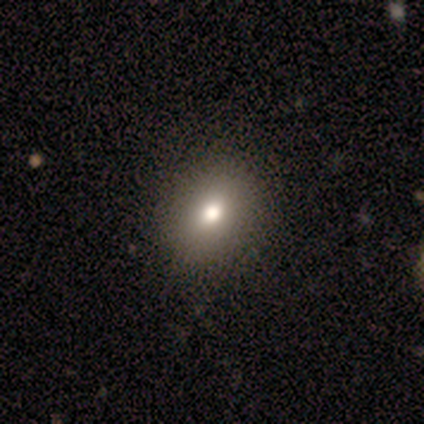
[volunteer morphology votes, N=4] Smooth or featured: smooth — 75% (star or artifact — 25%)
How rounded: round — 67% (in between — 33%)
Merging: none — 100%